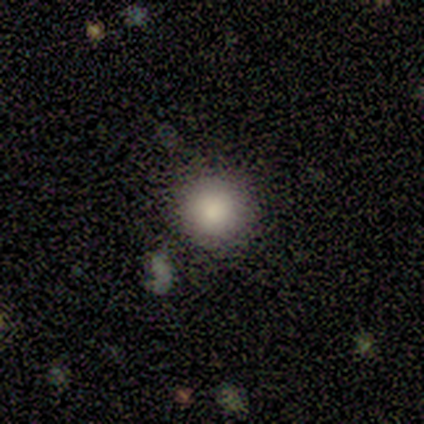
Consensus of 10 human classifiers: Smooth or featured? smooth (100%)
How rounded? round (100%)
Merging? none (80%)